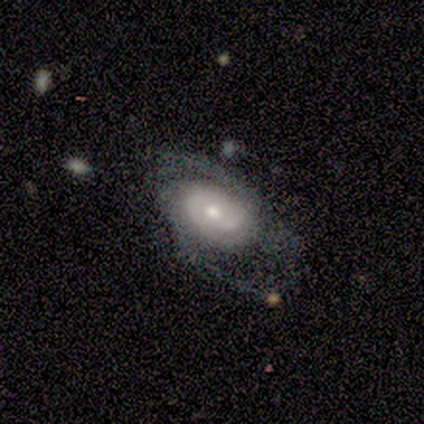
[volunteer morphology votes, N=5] Q: Smooth or featured?
A: featured or disk (100%)
Q: Edge-on disk?
A: no (100%)
Q: Bar?
A: no (60%); runner-up: strong (20%)
Q: Spiral arms?
A: yes (100%)
Q: Spiral winding?
A: medium (40%); tied with: loose (40%)
Q: Spiral arm count?
A: 2 (60%); runner-up: 4 (20%)
Q: Bulge size?
A: moderate (60%); runner-up: small (40%)
Q: Merging?
A: none (40%); tied with: minor disturbance (40%)